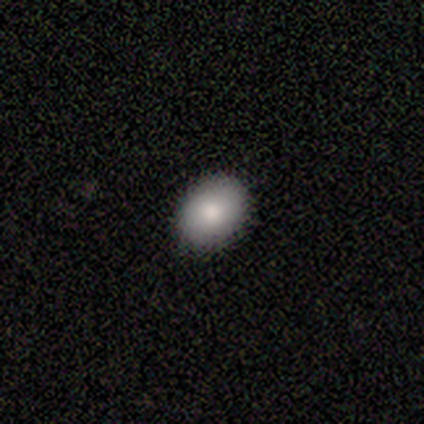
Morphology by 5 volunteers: smooth-or-featured: smooth: 60% | featured or disk: 40% | star or artifact: 0%
  how-rounded: in between: 67% | round: 33% | cigar-shaped: 0%
  merging: none: 80% | minor disturbance: 20% | major disturbance: 0% | merger: 0%